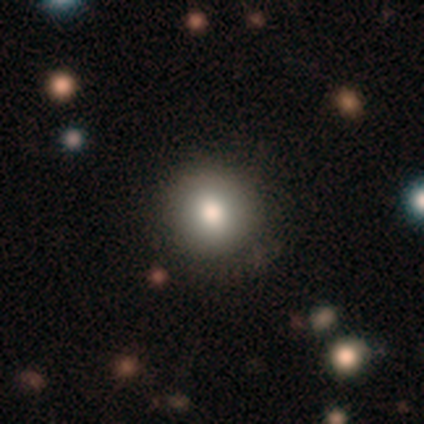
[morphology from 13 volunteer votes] Smooth or featured? 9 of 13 (69%) said smooth. How rounded? 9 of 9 (100%) said round. Merging? 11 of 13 (85%) said none.